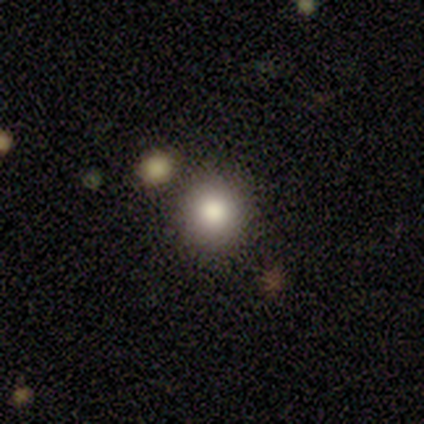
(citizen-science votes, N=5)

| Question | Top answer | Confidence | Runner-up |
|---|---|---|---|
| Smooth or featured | smooth | 100% | — |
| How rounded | round | 100% | — |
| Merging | none | 80% | merger (20%) |